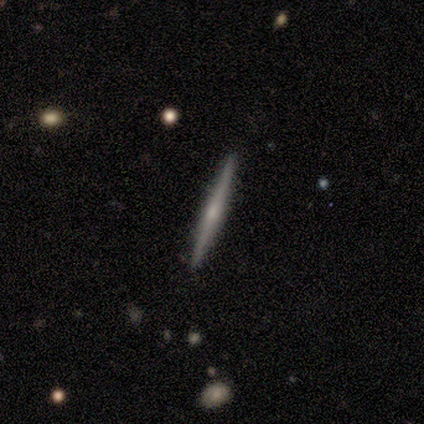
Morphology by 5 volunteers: smooth_or_featured: featured or disk (p=0.80) [alt: smooth p=0.20]
disk_edge_on: yes (p=1.00)
edge_on_bulge: rounded (p=0.75) [alt: none p=0.25]
merging: none (p=0.80) [alt: merger p=0.20]